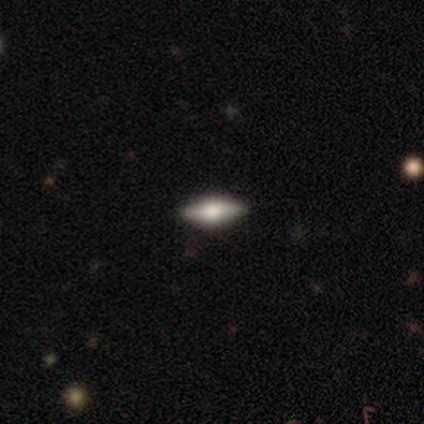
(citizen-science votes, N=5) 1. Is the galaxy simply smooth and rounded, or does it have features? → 60% featured or disk, 40% smooth, 0% star or artifact.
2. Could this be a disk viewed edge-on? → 67% yes, 33% no.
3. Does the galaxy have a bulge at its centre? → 50% boxy (tied), 50% rounded (tied), 0% none.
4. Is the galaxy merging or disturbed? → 100% none, 0% minor disturbance, 0% major disturbance, 0% merger.